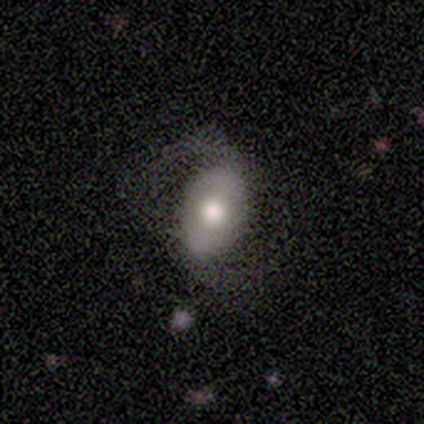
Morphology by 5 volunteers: This is likely a featured or disk galaxy (60%). It is clearly not viewed edge-on (100%). Bar: likely no (67%). Spiral arm pattern: clearly yes (100%). Spiral arm count: clearly 2 (100%). Spiral winding: likely loose (67%). Central bulge: likely moderate (67%). Merging: clearly none (80%).